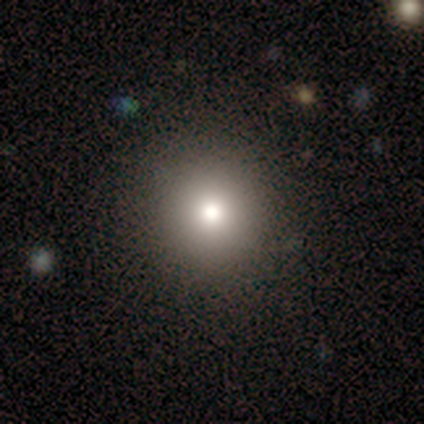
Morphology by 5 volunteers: Smooth or featured? 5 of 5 (100%) said smooth. How rounded? 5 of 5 (100%) said round. Merging? 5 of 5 (100%) said none.